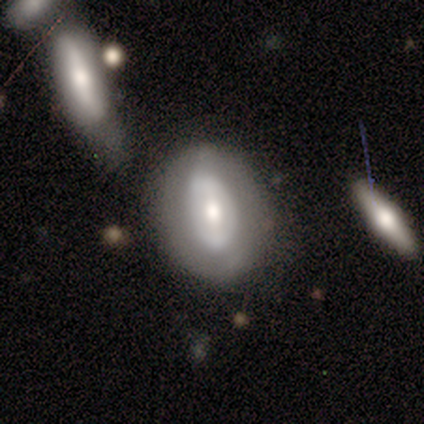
Q: Smooth or featured?
A: featured or disk (86%); runner-up: smooth (14%)
Q: Edge-on disk?
A: no (67%); runner-up: yes (33%)
Q: Bar?
A: strong (50%); runner-up: weak (25%)
Q: Spiral arms?
A: no (100%)
Q: Bulge size?
A: moderate (50%); runner-up: small (25%)
Q: Merging?
A: none (43%); runner-up: minor disturbance (29%)